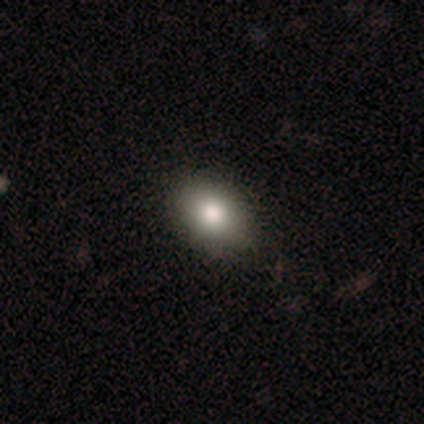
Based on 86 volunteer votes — smooth 79%, featured or disk 10%, star or artifact 10%. Down the decision tree: how rounded — in between (72%); merging — none (91%).